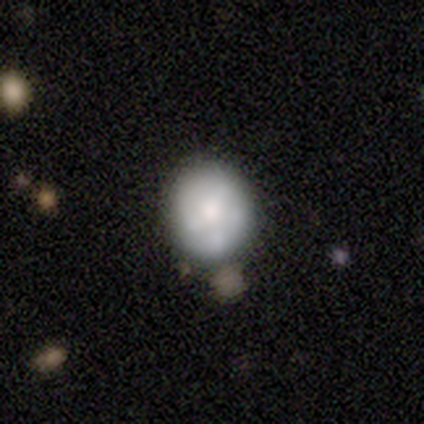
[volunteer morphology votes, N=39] This is possibly a smooth galaxy (56%). How rounded: likely round (73%). Merging: possibly none (51%).